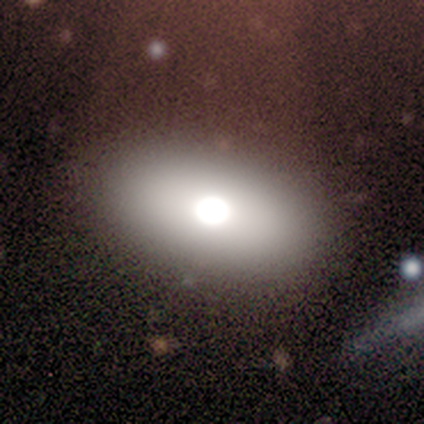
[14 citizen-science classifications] A smooth galaxy with no disk features (93%) that is in between round and cigar-shaped (92%). Merging: none (69%).